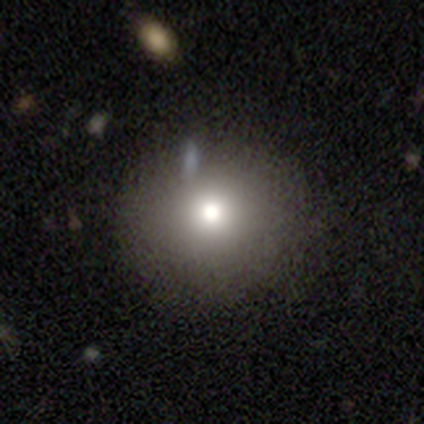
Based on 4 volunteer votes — Smooth or featured: smooth — 75% (star or artifact — 25%)
How rounded: in between — 67% (round — 33%)
Merging: none — 100%